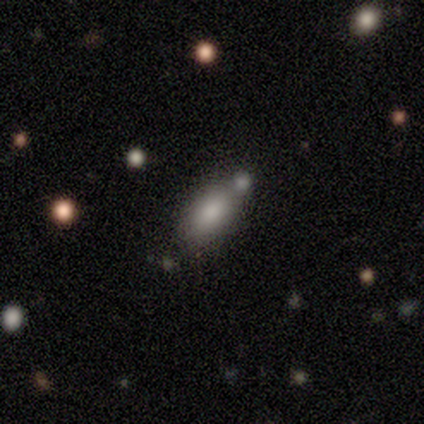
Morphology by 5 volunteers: smooth_or_featured: smooth (p=0.80) [alt: star or artifact p=0.20]
how_rounded: in between (p=1.00)
merging: none (p=0.50) [alt: minor disturbance p=0.25]